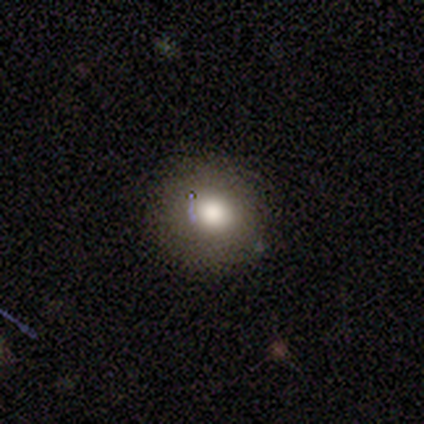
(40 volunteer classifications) This appears to be a smooth galaxy with no disk features (62%) that is round (92%). Merging: none (77%).